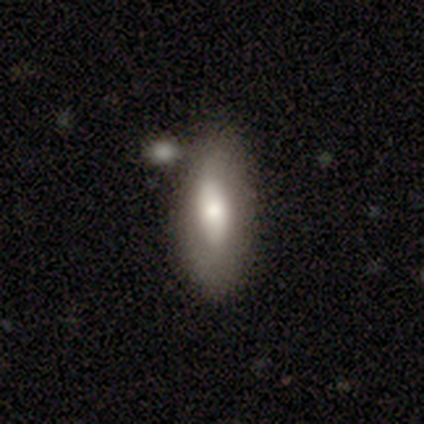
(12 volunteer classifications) Smooth or featured?
  - smooth: 75% *
  - featured or disk: 25%
  - star or artifact: 0%
How rounded?
  - in between: 67% *
  - cigar-shaped: 22%
  - round: 11%
Merging?
  - none: 75% *
  - minor disturbance: 8%
  - major disturbance: 8%
  - merger: 8%